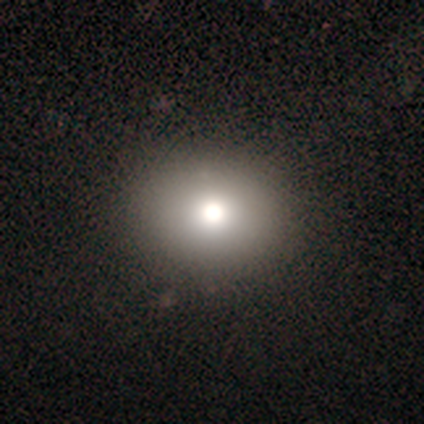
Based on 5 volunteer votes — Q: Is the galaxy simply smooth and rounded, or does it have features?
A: smooth — 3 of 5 (60%).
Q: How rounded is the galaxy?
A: in between — 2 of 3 (67%).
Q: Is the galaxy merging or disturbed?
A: none — 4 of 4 (100%).